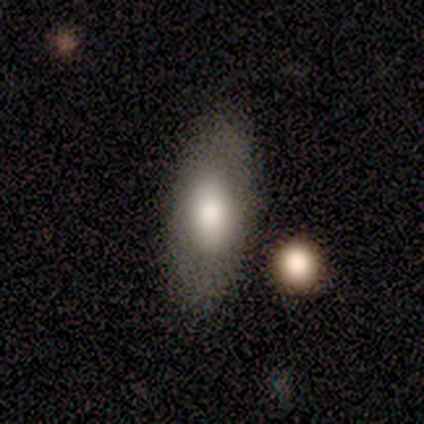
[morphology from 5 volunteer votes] smooth-or-featured: smooth: 60% | featured or disk: 40% | star or artifact: 0%
  how-rounded: in between: 100% | round: 0% | cigar-shaped: 0%
  merging: none: 80% | minor disturbance: 20% | major disturbance: 0% | merger: 0%